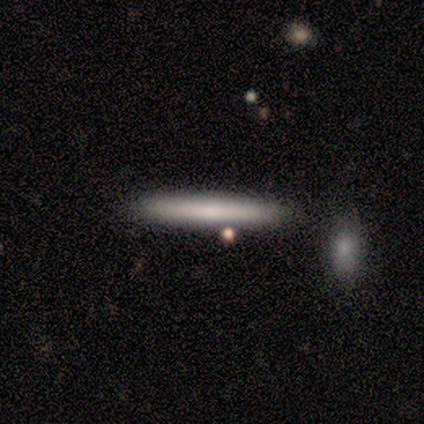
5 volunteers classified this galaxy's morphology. This is likely a smooth galaxy (60%). How rounded: clearly cigar-shaped (100%). Merging: clearly none (100%).